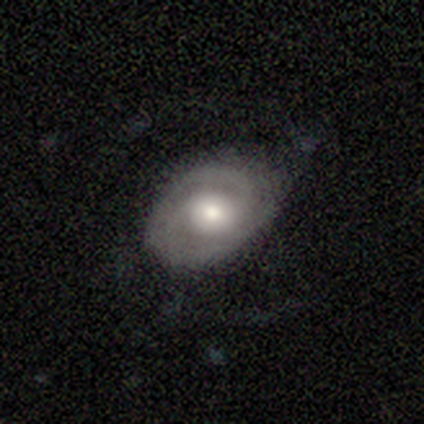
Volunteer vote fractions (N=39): Morphology: type=featured or disk (82%); edge-on=no (97%); bar=no (61%); spiral arms=yes (90%); winding=medium (46%); arm count=2 (75%); bulge=moderate (65%); merging=none (61%).